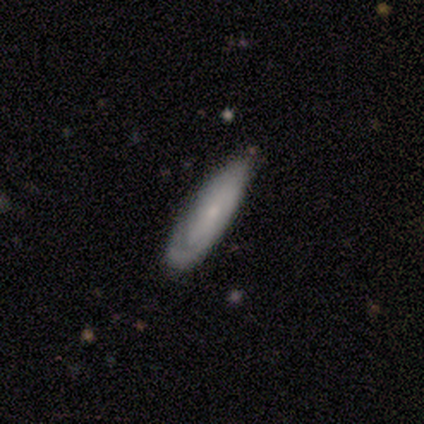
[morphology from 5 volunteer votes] Smooth or featured: featured or disk — 80% (smooth — 20%)
Edge-on disk: no — 75% (yes — 25%)
Bar: strong — 33% (tied with weak — 33%; no — 33%)
Spiral arms: yes — 100%
Spiral winding: tight — 100%
Spiral arm count: 2 — 67% (can't tell — 33%)
Bulge size: small — 67% (moderate — 33%)
Merging: none — 60% (minor disturbance — 40%)